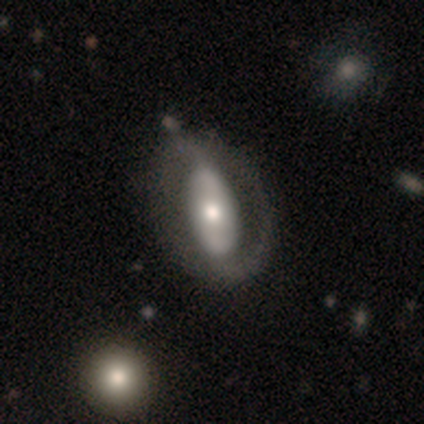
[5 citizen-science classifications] A featured or disk galaxy (80%) with no bar (100%), 2 (50%, tied with can't tell) loose (100%) spiral arms (50%, tied with no) and a moderate central bulge (75%). Merging: none (60%).